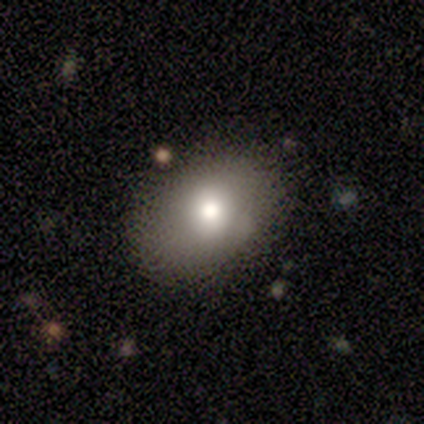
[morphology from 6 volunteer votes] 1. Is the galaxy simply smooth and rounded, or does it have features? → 83% smooth, 17% featured or disk, 0% star or artifact.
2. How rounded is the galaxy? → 80% round, 20% in between, 0% cigar-shaped.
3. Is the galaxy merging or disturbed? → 100% none, 0% minor disturbance, 0% major disturbance, 0% merger.